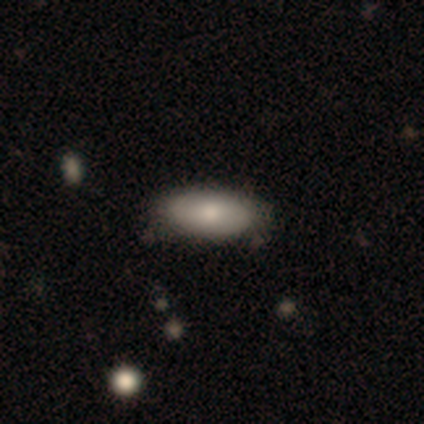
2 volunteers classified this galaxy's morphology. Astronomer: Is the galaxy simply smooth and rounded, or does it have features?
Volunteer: smooth — 50%, tied with featured or disk at 50%.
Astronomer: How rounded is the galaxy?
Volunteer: in between — 100%.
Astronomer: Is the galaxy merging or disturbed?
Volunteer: none — 100%.